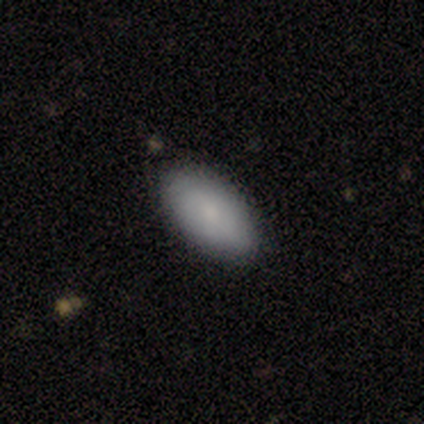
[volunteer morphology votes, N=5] Volunteers were most divided on "smooth or featured": smooth: 80%, featured or disk: 20%, star or artifact: 0%. More confident: how rounded — in between (100%); merging — none (100%).